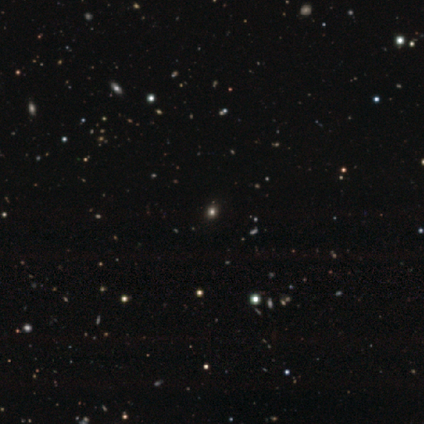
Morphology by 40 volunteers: A smooth galaxy with no disk features (52%) that is round (67%). Merging: none (74%).